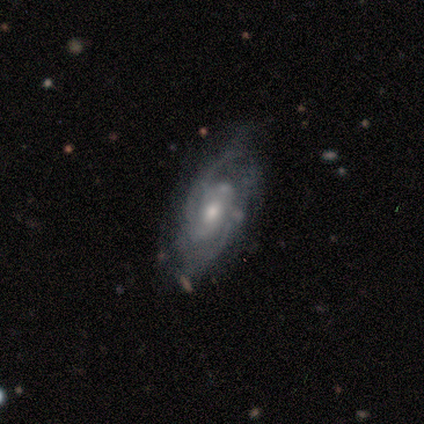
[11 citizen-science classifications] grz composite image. It shows a featured or disk galaxy (100%) with no bar (70%), 2 (44%) medium (78%) spiral arms (90%) and a moderate central bulge (50%). Merging: none (64%).